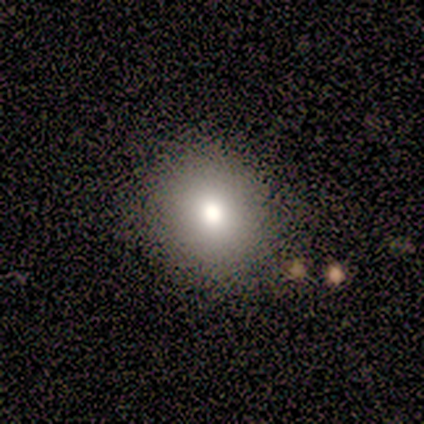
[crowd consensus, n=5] Volunteers were most divided on "how rounded" (2-way tie): round: 50%, in between: 50%, cigar-shaped: 0%. More confident: smooth or featured — smooth (80%); merging — none (60%).